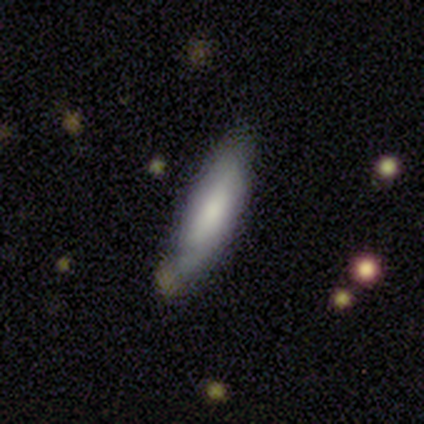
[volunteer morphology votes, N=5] Smooth or featured: smooth — 60% (featured or disk — 40%)
How rounded: cigar-shaped — 100%
Merging: none — 80% (major disturbance — 20%)